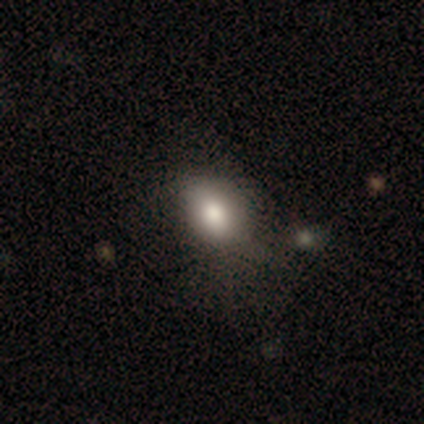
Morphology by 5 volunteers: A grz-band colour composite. It shows a smooth galaxy with no disk features (80%) that is in between round and cigar-shaped (100%). Merging: major disturbance (60%).